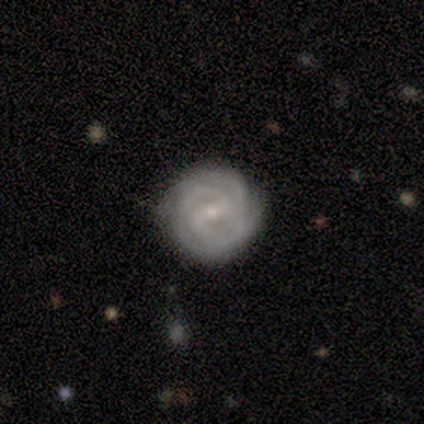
Overall: featured or disk (60%; smooth 40%). Edge-on disk: no (100%). Bar: weak (67%; strong 33%). Spiral arms: yes (100%). Spiral arm count: 2 (33%, tied with 3 and 4). Spiral winding: tight (67%; medium 33%). Bulge size: small (67%; moderate 33%). Merging: none (80%).